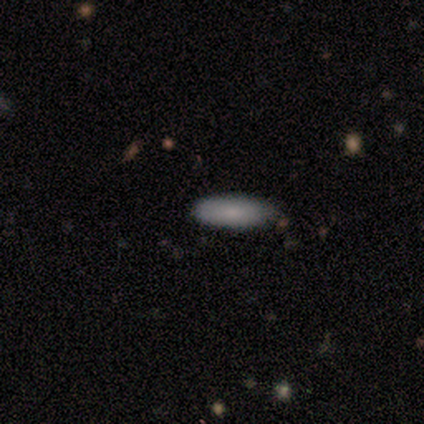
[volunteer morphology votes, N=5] Smooth or featured? smooth (100%)
How rounded? in between (60%)
Merging? none (40%, tied with minor disturbance)